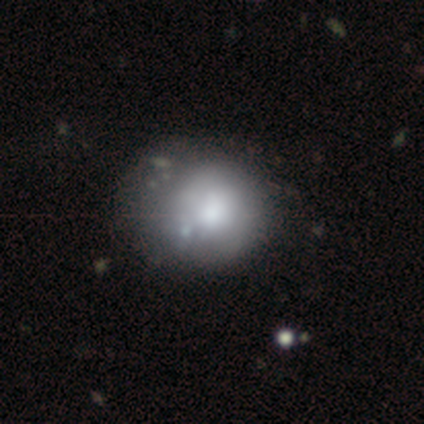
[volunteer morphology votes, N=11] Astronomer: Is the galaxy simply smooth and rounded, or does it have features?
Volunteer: smooth — 91%.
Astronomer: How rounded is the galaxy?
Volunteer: round — 60% (runner-up: in between, 40%).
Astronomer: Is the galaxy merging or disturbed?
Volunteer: minor disturbance — 45% (runner-up: none, 36%).